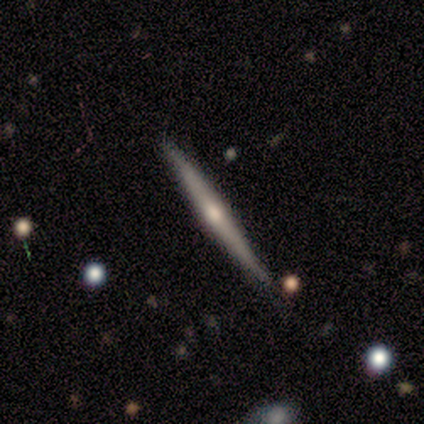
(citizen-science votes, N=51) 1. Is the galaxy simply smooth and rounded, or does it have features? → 76% featured or disk, 20% smooth, 4% star or artifact.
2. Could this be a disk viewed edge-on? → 100% yes, 0% no.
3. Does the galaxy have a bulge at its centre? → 77% rounded, 15% none, 8% boxy.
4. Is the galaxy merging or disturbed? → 82% none, 12% minor disturbance, 4% major disturbance, 2% merger.